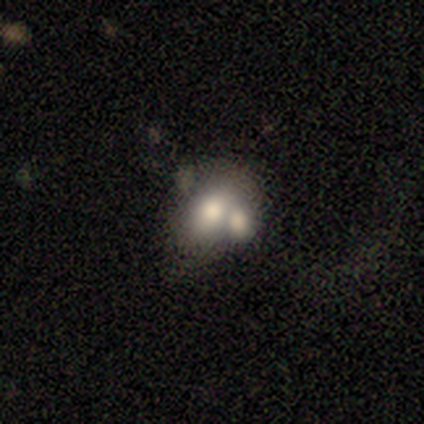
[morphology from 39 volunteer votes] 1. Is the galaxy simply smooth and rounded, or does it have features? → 67% smooth, 28% featured or disk, 5% star or artifact.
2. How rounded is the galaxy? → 69% in between, 31% round, 0% cigar-shaped.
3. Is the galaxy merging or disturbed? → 62% merger, 16% none, 14% minor disturbance, 8% major disturbance.